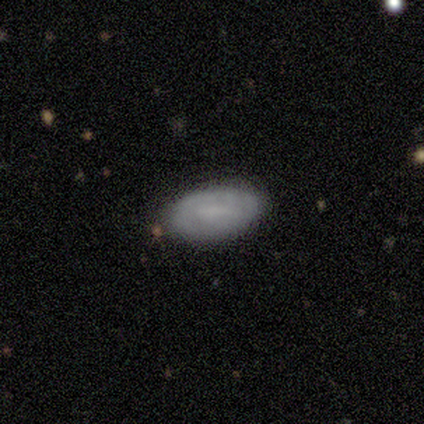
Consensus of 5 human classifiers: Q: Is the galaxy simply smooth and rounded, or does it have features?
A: smooth — 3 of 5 (60%).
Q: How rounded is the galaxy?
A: in between — 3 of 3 (100%).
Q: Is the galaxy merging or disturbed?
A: none — 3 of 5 (60%).